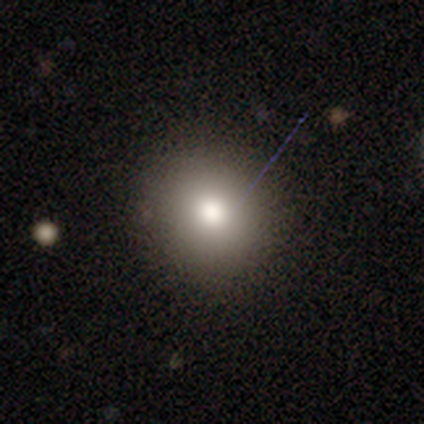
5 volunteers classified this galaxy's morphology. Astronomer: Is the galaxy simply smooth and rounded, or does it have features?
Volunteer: smooth — 100%.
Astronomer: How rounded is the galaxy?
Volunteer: round — 100%.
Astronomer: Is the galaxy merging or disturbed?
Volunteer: none — 100%.